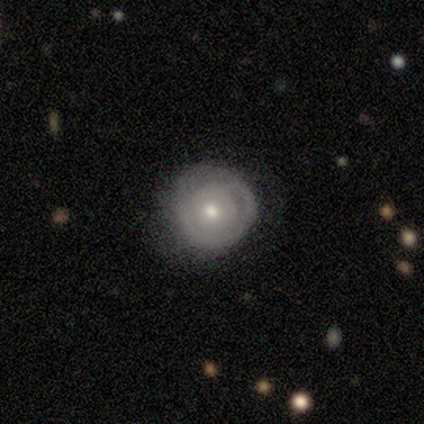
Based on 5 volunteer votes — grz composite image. It shows a smooth galaxy with no disk features (60%) that is round (67%). Merging: none (80%).